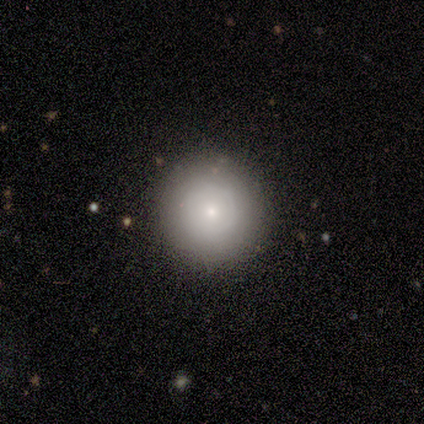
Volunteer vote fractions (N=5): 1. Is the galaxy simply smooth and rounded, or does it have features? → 80% smooth, 20% star or artifact, 0% featured or disk.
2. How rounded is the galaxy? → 75% round, 25% in between, 0% cigar-shaped.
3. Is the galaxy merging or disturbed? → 100% none, 0% minor disturbance, 0% major disturbance, 0% merger.